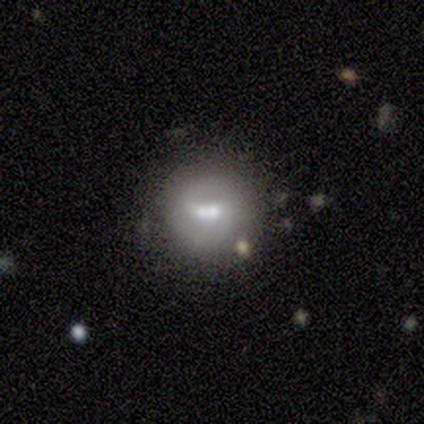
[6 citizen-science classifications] Q: Smooth or featured?
A: smooth (67%); runner-up: featured or disk (33%)
Q: How rounded?
A: round (50%); tied with: in between (50%)
Q: Merging?
A: merger (67%); runner-up: none (17%)